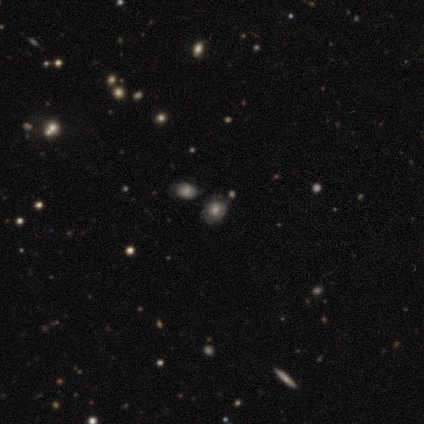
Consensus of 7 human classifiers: A smooth galaxy with no disk features (71%) that is in between round and cigar-shaped (60%).

Vote fractions:
- Smooth or featured? smooth: 71% / featured or disk: 29% / star or artifact: 0%
- How rounded? in between: 60% / round: 40% / cigar-shaped: 0%
- Merging? none: 71% / minor disturbance: 14% / merger: 14% / major disturbance: 0%